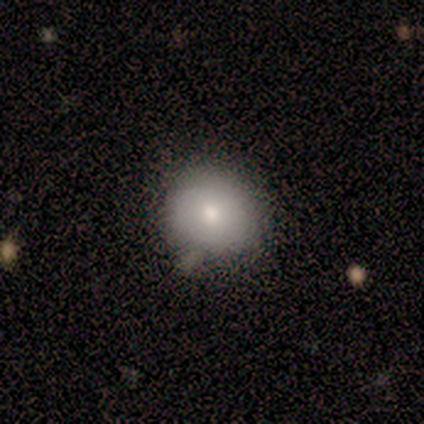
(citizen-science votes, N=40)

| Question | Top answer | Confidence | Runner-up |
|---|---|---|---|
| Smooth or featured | smooth | 70% | featured or disk (20%) |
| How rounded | round | 71% | in between (29%) |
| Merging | none | 67% | minor disturbance (28%) |